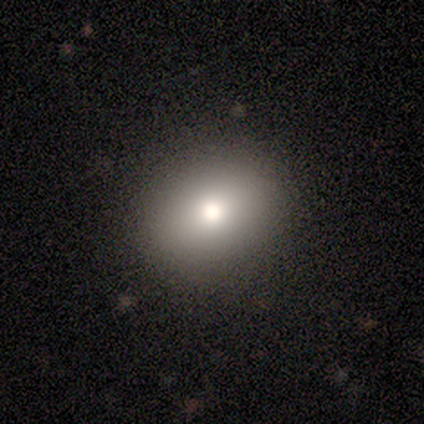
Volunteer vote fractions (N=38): Morphology: type=smooth (82%); roundness=round (52%); merging=none (91%).